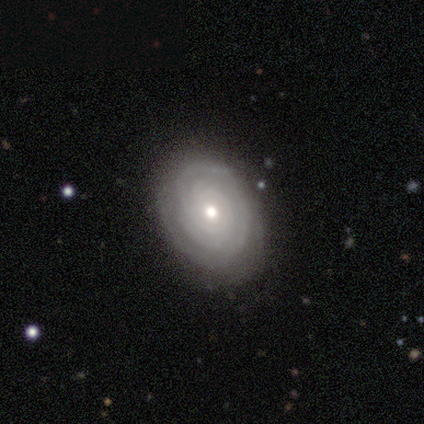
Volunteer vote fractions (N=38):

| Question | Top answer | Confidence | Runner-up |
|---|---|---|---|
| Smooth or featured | featured or disk | 89% | smooth (11%) |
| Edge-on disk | no | 97% | yes (3%) |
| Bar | no | 88% | weak (9%) |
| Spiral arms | yes | 97% | no (3%) |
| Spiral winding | tight | 91% | medium (9%) |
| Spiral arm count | can't tell | 44% | 3 (22%) |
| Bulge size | moderate | 70% | small (27%) |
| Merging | none | 84% | minor disturbance (16%) |